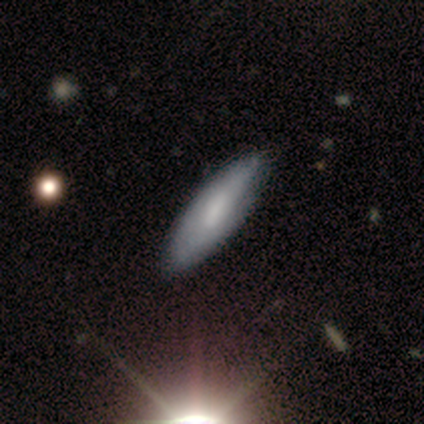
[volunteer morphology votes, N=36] Volunteers were most divided on "how rounded": in between: 59%, cigar-shaped: 41%, round: 0%. More confident: smooth or featured — smooth (61%); merging — none (57%).